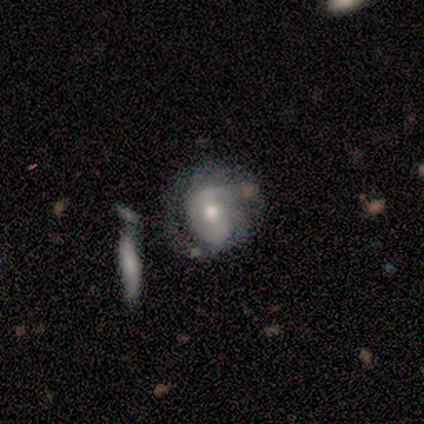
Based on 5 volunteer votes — Q: Smooth or featured?
A: featured or disk (60%); runner-up: smooth (40%)
Q: Edge-on disk?
A: no (100%)
Q: Bar?
A: strong (33%); tied with: weak (33%); no (33%)
Q: Spiral arms?
A: yes (100%)
Q: Spiral winding?
A: medium (67%); runner-up: tight (33%)
Q: Spiral arm count?
A: 2 (100%)
Q: Bulge size?
A: large (33%); tied with: moderate (33%); small (33%)
Q: Merging?
A: none (80%); runner-up: major disturbance (20%)